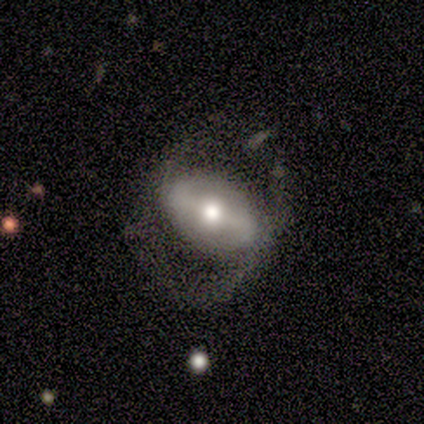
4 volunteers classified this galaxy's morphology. Overall: smooth (50%, tied with featured or disk). How rounded: round (100%). Merging: none (50%; minor disturbance 25%).